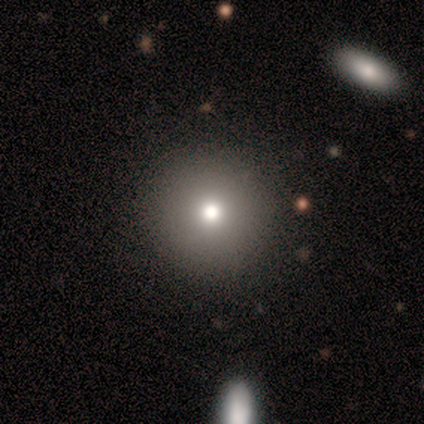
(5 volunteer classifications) Smooth or featured? smooth (80%)
How rounded? round (100%)
Merging? none (75%)